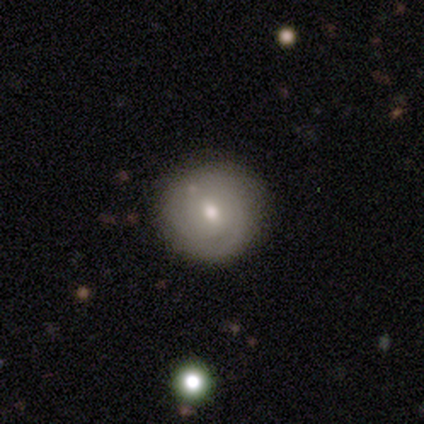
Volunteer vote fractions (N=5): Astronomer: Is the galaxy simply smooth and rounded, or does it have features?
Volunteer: smooth — 60% (runner-up: featured or disk, 40%).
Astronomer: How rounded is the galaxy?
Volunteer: round — 100%.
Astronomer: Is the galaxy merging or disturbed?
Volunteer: none — 100%.